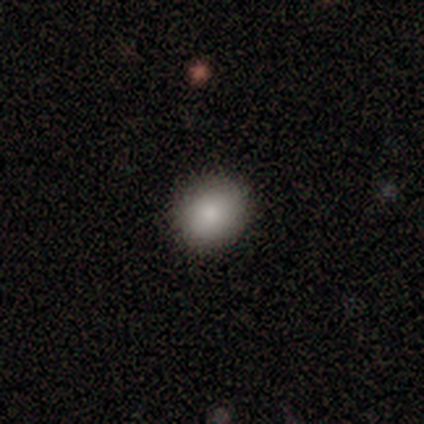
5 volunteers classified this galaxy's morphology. smooth-or-featured: smooth: 80% | star or artifact: 20% | featured or disk: 0%
  how-rounded: round: 50% (tied) | in between: 50% (tied) | cigar-shaped: 0%
  merging: none: 75% | minor disturbance: 25% | major disturbance: 0% | merger: 0%